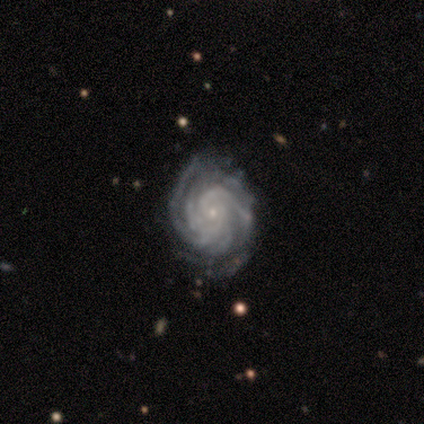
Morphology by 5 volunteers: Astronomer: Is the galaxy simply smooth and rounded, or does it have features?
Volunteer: featured or disk — 80%.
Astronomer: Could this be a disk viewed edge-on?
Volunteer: no — 100%.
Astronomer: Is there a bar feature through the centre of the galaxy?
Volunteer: no — 100%.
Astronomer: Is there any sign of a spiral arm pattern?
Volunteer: yes — 100%.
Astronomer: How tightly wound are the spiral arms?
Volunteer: tight — 100%.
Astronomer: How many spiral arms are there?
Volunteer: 4 — 75%.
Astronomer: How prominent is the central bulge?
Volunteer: small — 100%.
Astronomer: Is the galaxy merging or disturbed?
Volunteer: none — 80%.